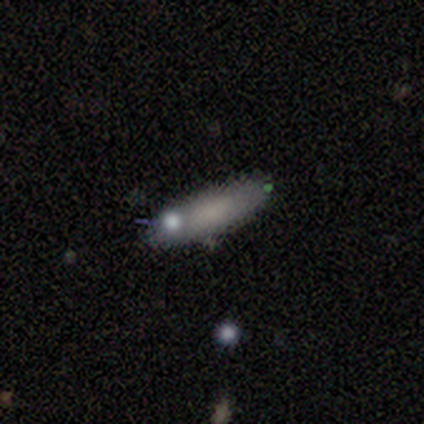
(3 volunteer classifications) This is likely a smooth galaxy (67%). How rounded: possibly in between (50%, tied with cigar-shaped). Merging: likely none (67%).